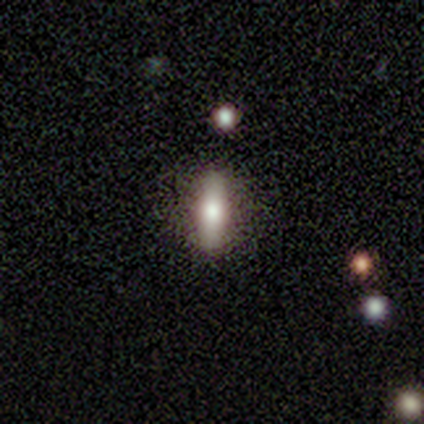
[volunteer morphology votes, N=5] Smooth or featured? smooth (60%)
How rounded? cigar-shaped (67%)
Merging? none (100%)